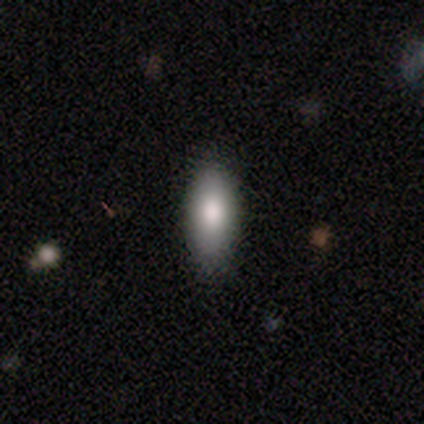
Smooth or featured? 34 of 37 (92%) said smooth. How rounded? 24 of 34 (71%) said in between. Merging? 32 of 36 (89%) said none.